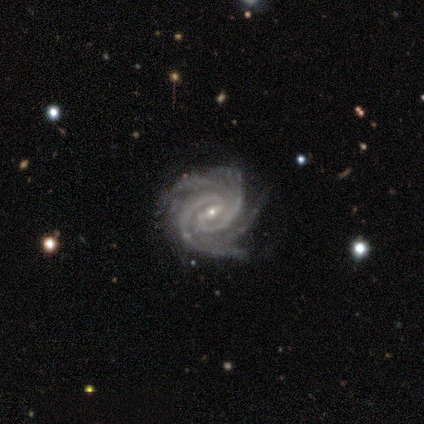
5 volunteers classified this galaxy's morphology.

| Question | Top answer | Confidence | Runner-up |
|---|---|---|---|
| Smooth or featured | featured or disk | 60% | star or artifact (40%) |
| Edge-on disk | no | 100% | — |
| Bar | weak | 67% | no (33%) |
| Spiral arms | yes | 100% | — |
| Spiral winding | tight | 100% | — |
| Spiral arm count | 2 | 33% | tied: 3 (33%), 4 (33%) |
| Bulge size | small | 100% | — |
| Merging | none | 100% | — |